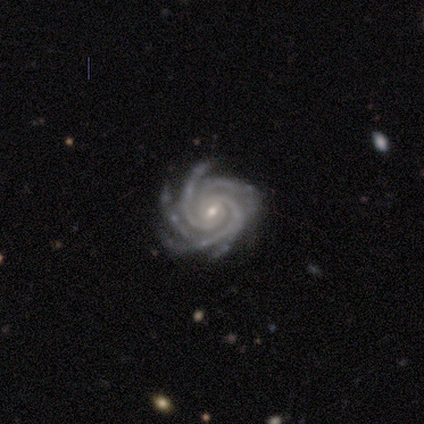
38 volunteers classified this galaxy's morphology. Smooth or featured? 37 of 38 (97%) said featured or disk. Edge-on disk? 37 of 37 (100%) said no. Bar? 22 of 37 (59%) said weak. Spiral arms? 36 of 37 (97%) said yes. Spiral winding? 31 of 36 (86%) said tight. Spiral arm count? 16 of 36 (44%) said more than 4. Bulge size? 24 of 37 (65%) said small. Merging? 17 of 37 (46%) said none.